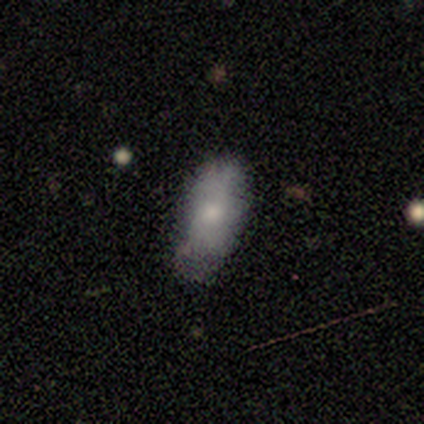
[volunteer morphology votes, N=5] smooth 80%, featured or disk 20%, star or artifact 0%. Down the decision tree: how rounded — in between (75%); merging — minor disturbance (60%).